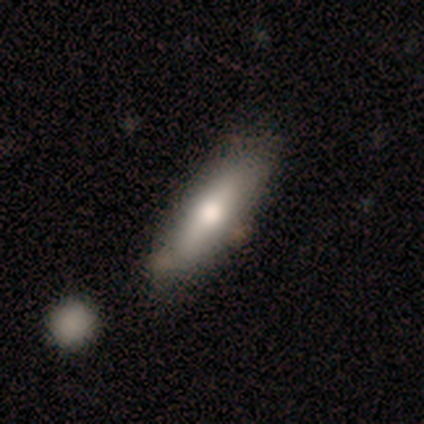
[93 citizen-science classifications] Smooth or featured? 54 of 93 (58%) said smooth. How rounded? 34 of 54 (63%) said cigar-shaped. Merging? 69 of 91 (76%) said none.